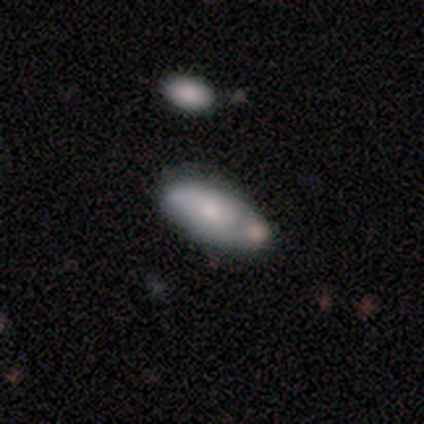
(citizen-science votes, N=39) Smooth or featured? smooth (69%)
How rounded? in between (78%)
Merging? none (47%)